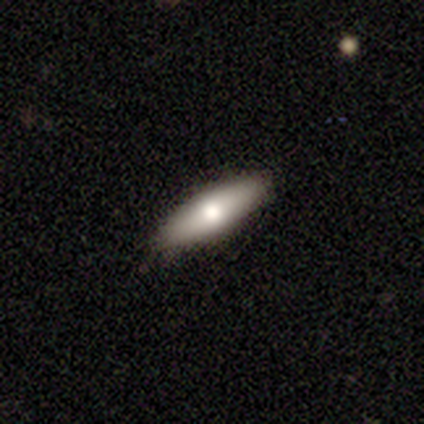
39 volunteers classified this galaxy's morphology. Smooth or featured? smooth (77%)
How rounded? in between (50%, tied with cigar-shaped)
Merging? none (86%)